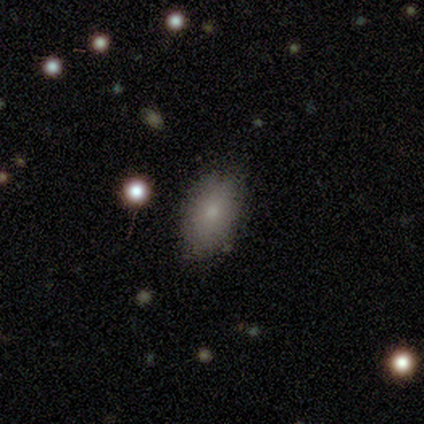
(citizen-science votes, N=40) Smooth or featured? smooth (82%)
How rounded? in between (88%)
Merging? none (61%)